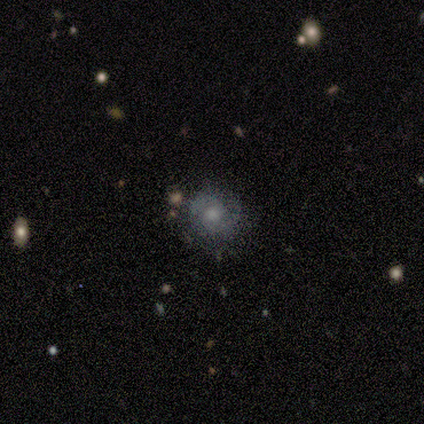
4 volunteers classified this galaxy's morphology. This is likely a featured or disk galaxy (75%). It is clearly not viewed edge-on (100%). Bar: clearly no (100%). Spiral arm pattern: likely yes (67%). Spiral arm count: clearly 2 (100%). Spiral winding: clearly medium (100%). Central bulge: marginally large (33%, tied with moderate and small). Merging: likely none (75%).